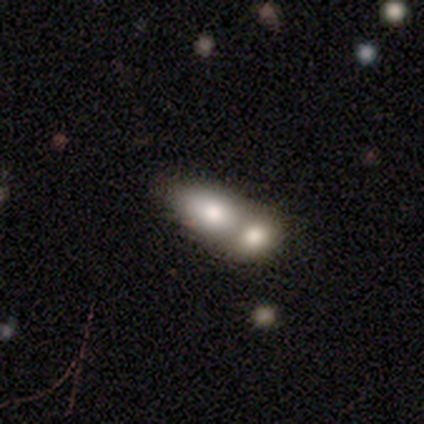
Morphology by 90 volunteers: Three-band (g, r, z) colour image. It shows a smooth galaxy with no disk features (63%) that is in between round and cigar-shaped (82%). Merging: merger (83%).